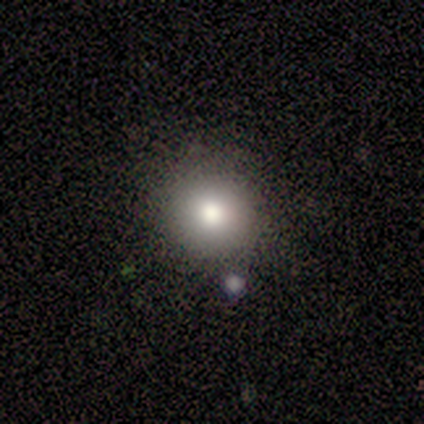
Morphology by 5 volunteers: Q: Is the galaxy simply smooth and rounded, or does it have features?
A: smooth — 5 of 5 (100%).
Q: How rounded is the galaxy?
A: round — 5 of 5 (100%).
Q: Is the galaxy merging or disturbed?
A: none — 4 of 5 (80%).